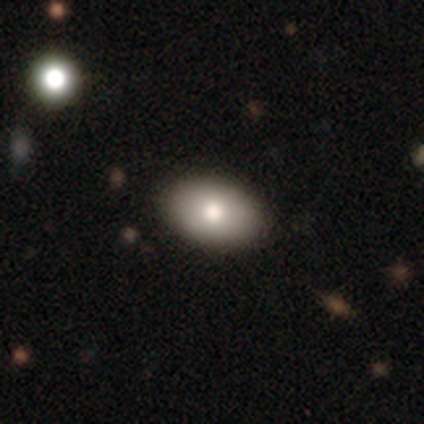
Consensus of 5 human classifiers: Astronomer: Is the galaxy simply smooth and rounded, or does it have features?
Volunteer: smooth — 80%.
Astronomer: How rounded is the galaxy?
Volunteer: in between — 100%.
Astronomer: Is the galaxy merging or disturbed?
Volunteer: none — 100%.